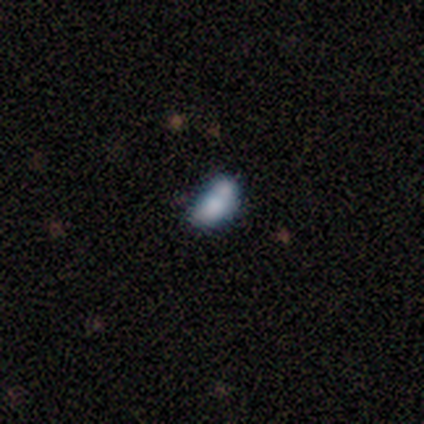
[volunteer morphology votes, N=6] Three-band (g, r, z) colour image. It shows a featured or disk galaxy (67%) with no bar (100%), no spiral arms (75%) and a small central bulge (50%, tied with none). Merging: none (50%, tied with merger).